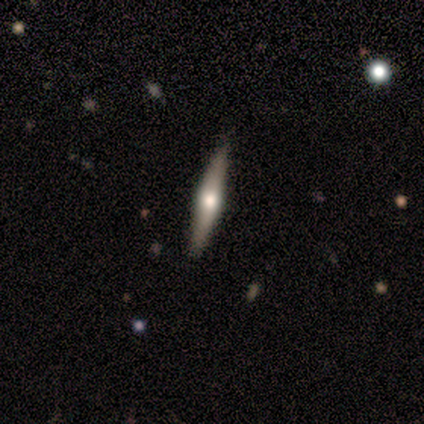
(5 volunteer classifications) Overall: smooth (40%, tied with featured or disk). How rounded: cigar-shaped (100%). Merging: none (100%).